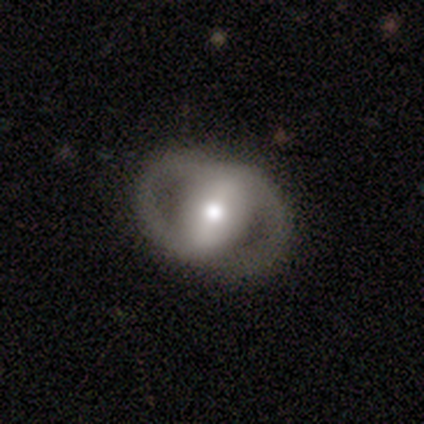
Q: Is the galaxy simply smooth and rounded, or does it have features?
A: featured or disk — 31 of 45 (69%).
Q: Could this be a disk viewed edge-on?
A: no — 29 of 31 (94%).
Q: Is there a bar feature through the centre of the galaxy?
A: strong — 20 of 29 (69%).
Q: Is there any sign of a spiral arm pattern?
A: yes — 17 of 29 (59%).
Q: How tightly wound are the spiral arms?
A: medium — 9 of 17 (53%).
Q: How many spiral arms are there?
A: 2 — 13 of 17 (76%).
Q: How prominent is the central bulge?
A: moderate — 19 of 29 (66%).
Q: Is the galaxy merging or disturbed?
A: none — 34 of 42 (81%).